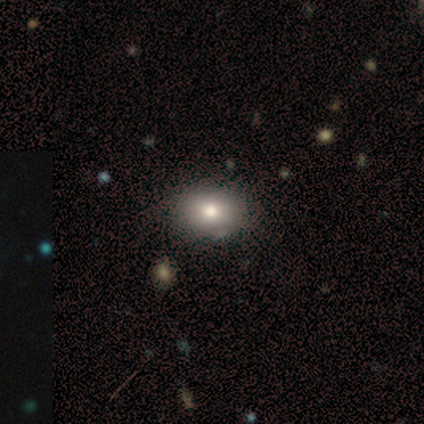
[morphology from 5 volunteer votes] type=smooth (80%); roundness=in between (100%); merging=none (100%).